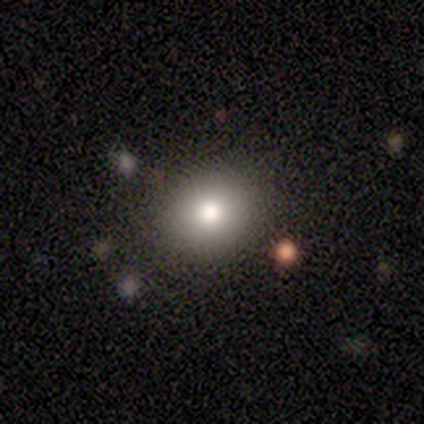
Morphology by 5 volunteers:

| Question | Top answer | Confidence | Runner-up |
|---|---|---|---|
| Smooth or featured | smooth | 60% | star or artifact (40%) |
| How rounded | round | 100% | — |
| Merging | none | 100% | — |